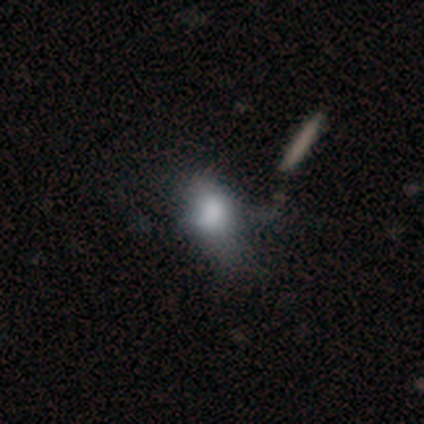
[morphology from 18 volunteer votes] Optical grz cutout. It shows a smooth galaxy with no disk features (50%) that is in between round and cigar-shaped (78%). Merging: none (36%, tied with minor disturbance).